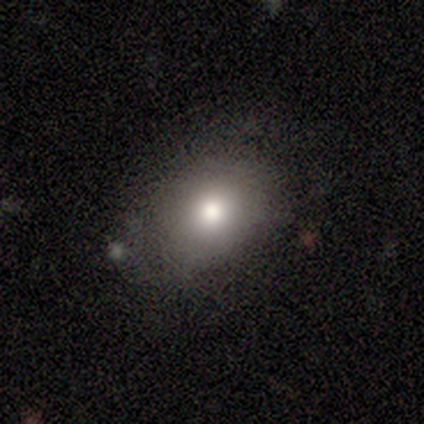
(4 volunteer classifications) Smooth or featured? 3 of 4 (75%) said smooth. How rounded? 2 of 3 (67%) said round. Merging? 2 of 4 (50%) said none.